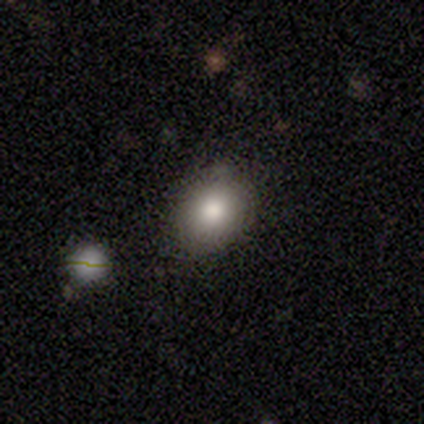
smooth_or_featured: smooth (p=1.00)
how_rounded: round (p=1.00)
merging: none (p=1.00)